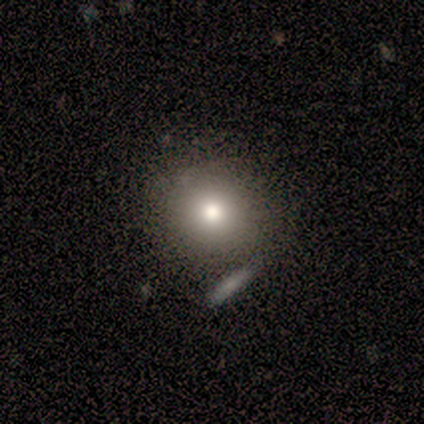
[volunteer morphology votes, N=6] smooth_or_featured: smooth (p=0.83) [alt: star or artifact p=0.17]
how_rounded: round (p=1.00)
merging: none (p=1.00)